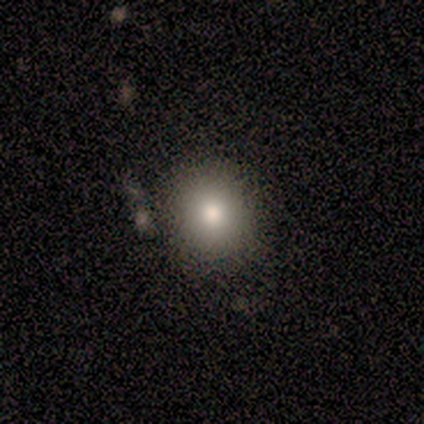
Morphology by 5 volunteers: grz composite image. It shows a smooth galaxy with no disk features (60%) that is round (100%). Merging: none (100%).